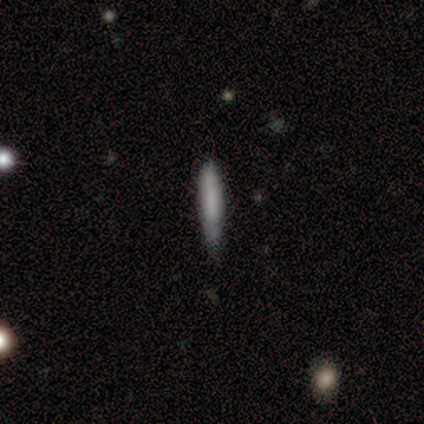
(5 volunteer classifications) Smooth or featured: smooth — 100%
How rounded: cigar-shaped — 100%
Merging: minor disturbance — 60% (none — 40%)